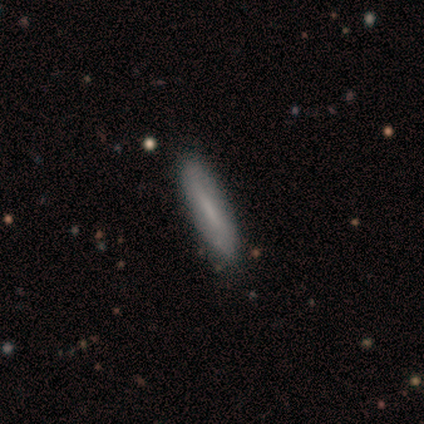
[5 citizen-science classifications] smooth-or-featured: smooth: 80% | featured or disk: 20% | star or artifact: 0%
  how-rounded: cigar-shaped: 100% | round: 0% | in between: 0%
  merging: none: 80% | major disturbance: 20% | minor disturbance: 0% | merger: 0%